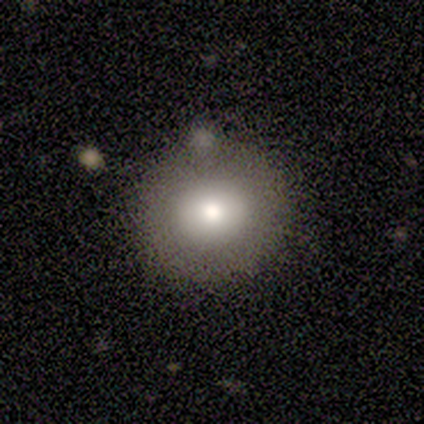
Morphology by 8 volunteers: A smooth galaxy with no disk features (50%) that is round (100%). Merging: none (86%).